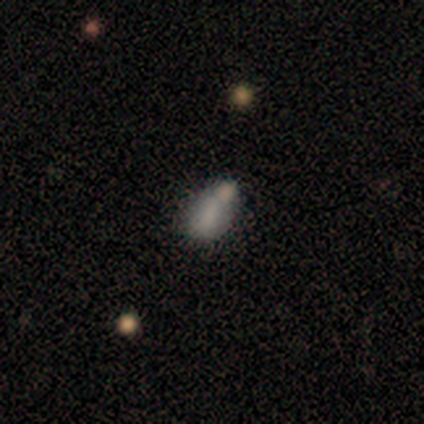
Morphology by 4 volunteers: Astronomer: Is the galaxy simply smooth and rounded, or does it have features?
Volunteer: smooth — 75%.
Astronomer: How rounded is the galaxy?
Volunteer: in between — 100%.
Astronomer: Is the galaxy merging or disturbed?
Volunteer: none — 33%, tied with minor disturbance and merger at 33%.